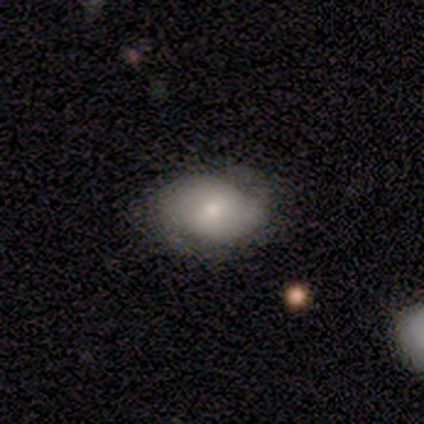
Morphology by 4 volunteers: Overall: smooth (75%). How rounded: in between (100%). Merging: none (50%, tied with minor disturbance).